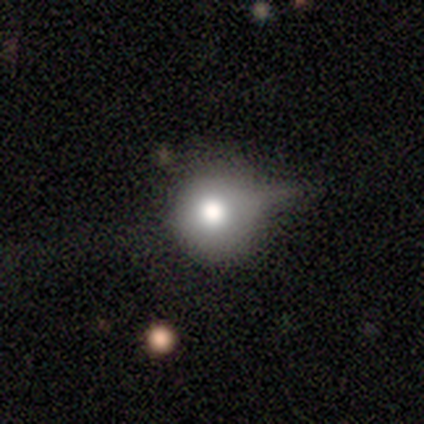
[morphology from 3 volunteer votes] This is likely a smooth galaxy (67%). How rounded: possibly round (50%, tied with in between). Merging: clearly none (100%).